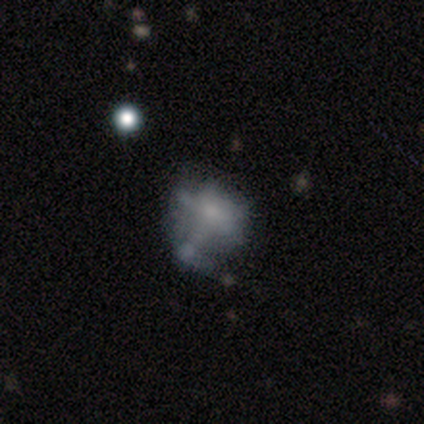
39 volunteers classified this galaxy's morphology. smooth-or-featured: featured or disk: 44% | smooth: 41% | star or artifact: 15%
  disk-edge-on: no: 100% | yes: 0%
    bar: no: 88% | weak: 12% | strong: 0%
    has-spiral-arms: no: 100% | yes: 0%
    bulge-size: none: 53% | small: 24% | moderate: 12% | dominant: 6% | large: 6%
  merging: none: 42% | minor disturbance: 36% | merger: 12% | major disturbance: 9%